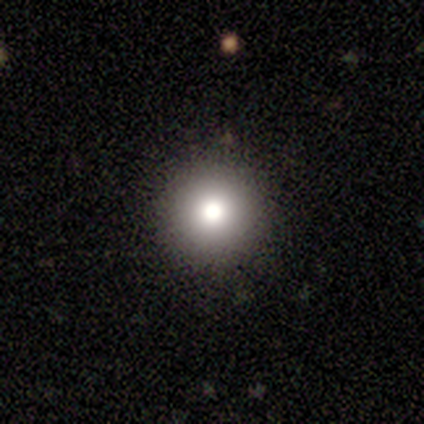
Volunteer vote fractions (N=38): Morphology: type=smooth (68%); roundness=round (96%); merging=none (89%).